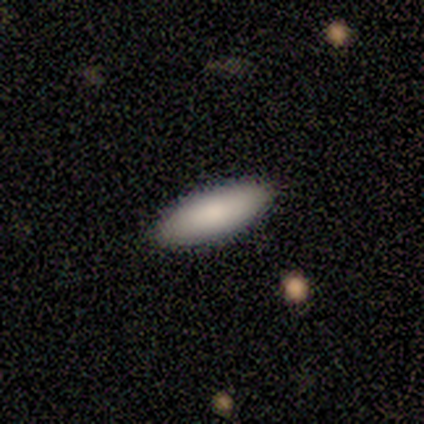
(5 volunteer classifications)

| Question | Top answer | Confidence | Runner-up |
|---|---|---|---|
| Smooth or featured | smooth | 80% | featured or disk (20%) |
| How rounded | in between | 75% | cigar-shaped (25%) |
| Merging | none | 100% | — |